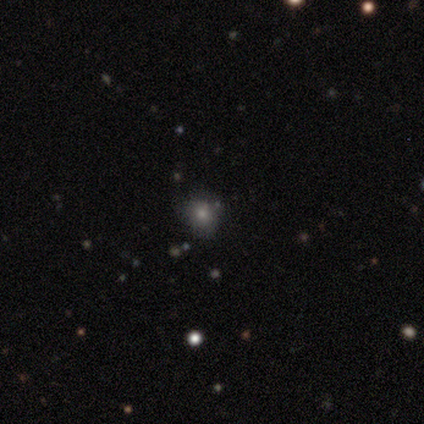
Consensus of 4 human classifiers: Volunteers were most divided on "smooth or featured": smooth: 50%, featured or disk: 25%, star or artifact: 25%. More confident: how rounded — round (100%); merging — none (100%).